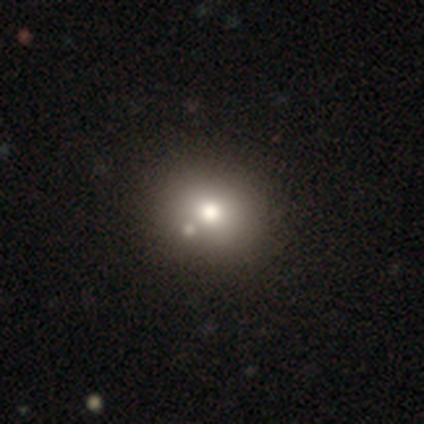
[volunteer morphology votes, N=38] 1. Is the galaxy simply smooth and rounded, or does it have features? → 68% smooth, 24% star or artifact, 8% featured or disk.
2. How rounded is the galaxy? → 69% round, 31% in between, 0% cigar-shaped.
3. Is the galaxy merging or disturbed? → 76% none, 10% minor disturbance, 10% merger, 3% major disturbance.